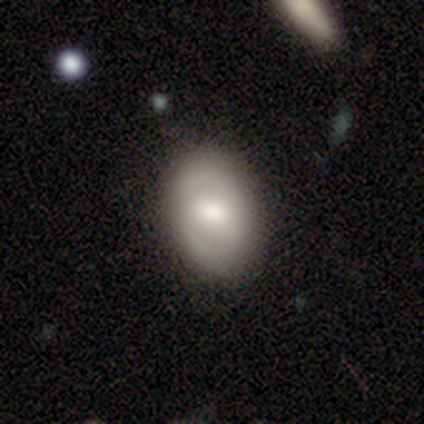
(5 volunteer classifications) smooth 80%, featured or disk 20%, star or artifact 0%. Down the decision tree: how rounded — in between (75%); merging — none (60%).